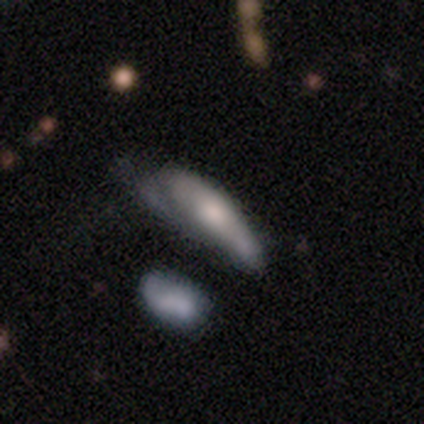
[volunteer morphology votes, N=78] Q: Smooth or featured?
A: smooth (55%); runner-up: featured or disk (33%)
Q: How rounded?
A: cigar-shaped (56%); runner-up: in between (44%)
Q: Merging?
A: minor disturbance (48%); runner-up: none (23%)